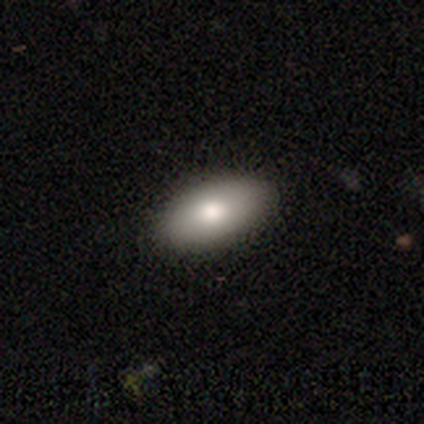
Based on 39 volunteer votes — Smooth or featured? 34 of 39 (87%) said smooth. How rounded? 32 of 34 (94%) said in between. Merging? 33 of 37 (89%) said none.